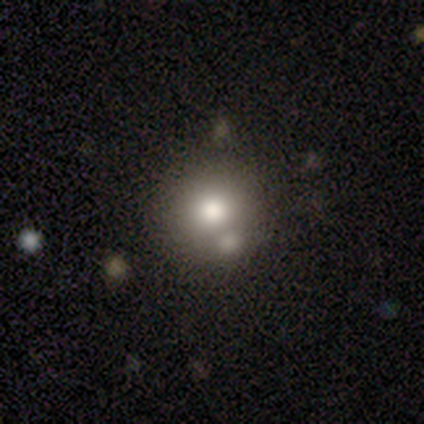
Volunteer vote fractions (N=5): This is likely a star or artifact rather than a galaxy (60%).